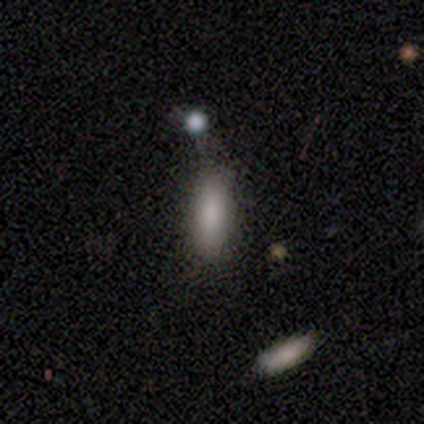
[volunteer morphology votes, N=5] Smooth or featured? smooth (100%)
How rounded? in between (80%)
Merging? none (80%)